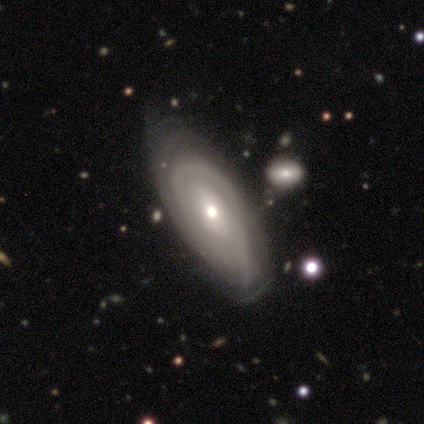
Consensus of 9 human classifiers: Smooth or featured: featured or disk — 100%
Edge-on disk: no — 89% (yes — 11%)
Bar: no — 75% (strong — 12%)
Spiral arms: yes — 62% (no — 38%)
Spiral winding: tight — 100%
Spiral arm count: can't tell — 80% (2 — 20%)
Bulge size: small — 50% (moderate — 38%)
Merging: none — 78% (major disturbance — 22%)